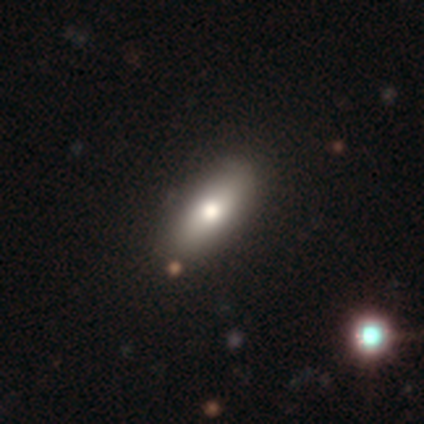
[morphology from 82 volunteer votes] This appears to be a smooth galaxy with no disk features (83%) that is in between round and cigar-shaped (78%). Merging: none (43%).